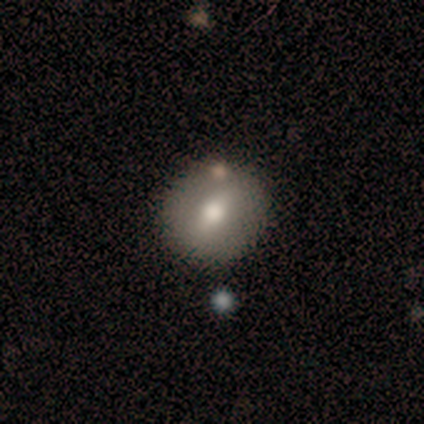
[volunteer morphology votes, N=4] Smooth or featured? 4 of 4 (100%) said smooth. How rounded? 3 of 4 (75%) said round. Merging? 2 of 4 (50%) said none.